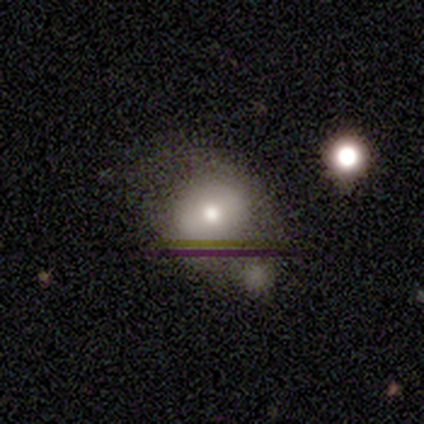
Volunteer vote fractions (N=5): Smooth or featured: smooth — 40% (tied with star or artifact — 40%)
How rounded: round — 100%
Merging: major disturbance — 67% (minor disturbance — 33%)